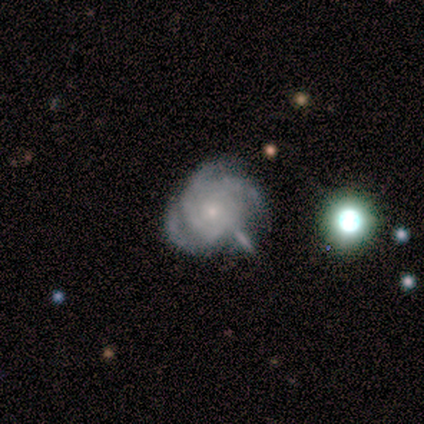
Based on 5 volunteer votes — smooth_or_featured: featured or disk (p=1.00)
disk_edge_on: no (p=0.80) [alt: yes p=0.20]
bar: no (p=1.00)
has_spiral_arms: yes (p=1.00)
spiral_winding: tight (p=0.75) [alt: medium p=0.25]
spiral_arm_count: 3 (p=0.75) [alt: can't tell p=0.25]
bulge_size: small (p=1.00)
merging: none (p=0.60) [alt: merger p=0.40]